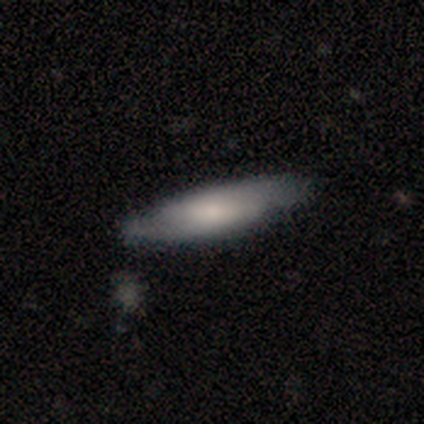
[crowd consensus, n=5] Smooth or featured?
  - featured or disk: 60% *
  - smooth: 40%
  - star or artifact: 0%
Edge-on disk?
  - no: 67% *
  - yes: 33%
Bar?
  - weak: 100% *
  - strong: 0%
  - no: 0%
Spiral arms?
  - yes: 100% *
  - no: 0%
Spiral winding?
  - tight: 50% * (tied)
  - loose: 50% * (tied)
  - medium: 0%
Spiral arm count?
  - 2: 100% *
  - 1: 0%
  - 3: 0%
  - 4: 0%
  - more than 4: 0%
  - can't tell: 0%
Bulge size?
  - moderate: 100% *
  - dominant: 0%
  - large: 0%
  - small: 0%
  - none: 0%
Merging?
  - none: 100% *
  - minor disturbance: 0%
  - major disturbance: 0%
  - merger: 0%